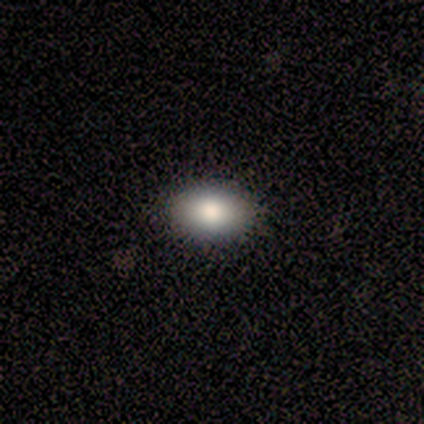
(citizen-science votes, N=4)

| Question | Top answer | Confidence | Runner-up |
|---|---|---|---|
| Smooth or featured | smooth | 100% | — |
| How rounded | in between | 100% | — |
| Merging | none | 100% | — |